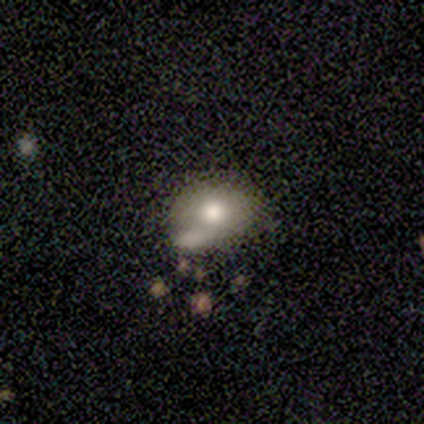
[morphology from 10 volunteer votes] Smooth or featured: smooth — 90% (featured or disk — 10%)
How rounded: in between — 89% (round — 11%)
Merging: minor disturbance — 40% (none — 30%)